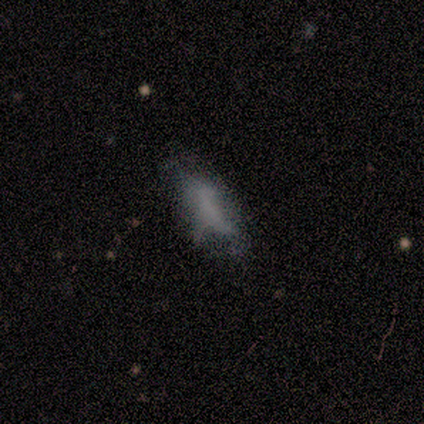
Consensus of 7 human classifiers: Smooth or featured? 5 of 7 (71%) said featured or disk. Edge-on disk? 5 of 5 (100%) said no. Bar? 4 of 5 (80%) said no. Spiral arms? 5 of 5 (100%) said no. Bulge size? 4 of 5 (80%) said none. Merging? 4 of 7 (57%) said none.